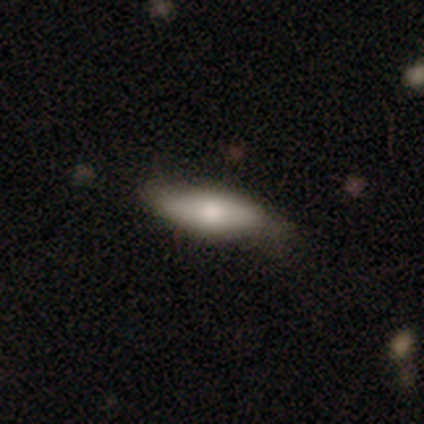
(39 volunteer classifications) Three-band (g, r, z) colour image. It shows a smooth galaxy with no disk features (64%) that is cigar-shaped (52%). Merging: none (68%).